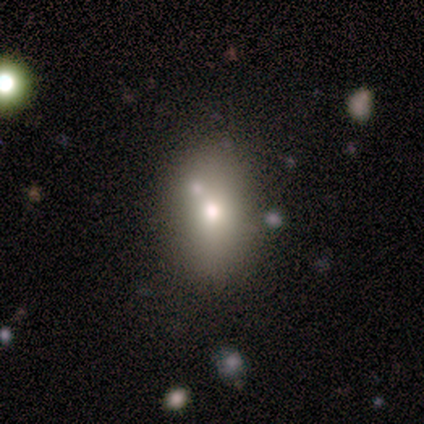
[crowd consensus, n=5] smooth 60%, star or artifact 40%, featured or disk 0%. Down the decision tree: how rounded — in between (100%); merging — none (100%).